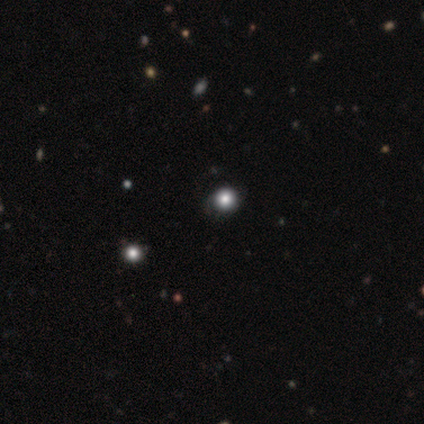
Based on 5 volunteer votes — A smooth galaxy with no disk features (60%) that is round (100%).

Vote fractions:
- Smooth or featured? smooth: 60% / featured or disk: 20% / star or artifact: 20%
- How rounded? round: 100% / in between: 0% / cigar-shaped: 0%
- Merging? none: 50% / minor disturbance: 25% / merger: 25% / major disturbance: 0%